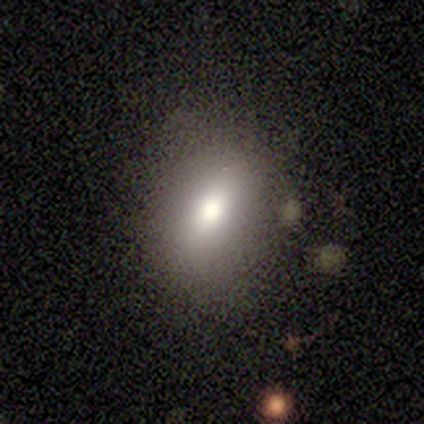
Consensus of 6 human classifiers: Morphology: type=smooth (83%); roundness=in between (100%); merging=none (60%).